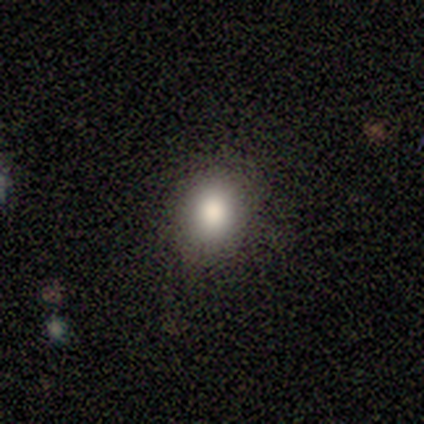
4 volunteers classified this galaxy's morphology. This appears to be a smooth galaxy with no disk features (100%) that is round (50%, tied with in between). Merging: none (75%).